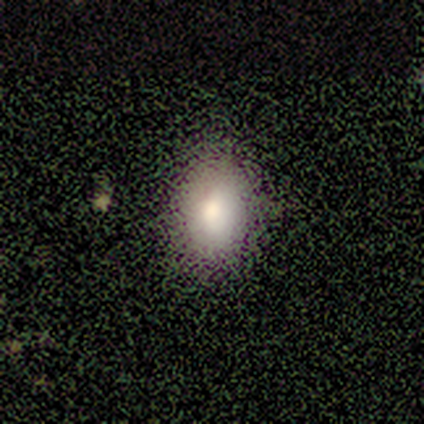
smooth_or_featured: smooth (p=0.83) [alt: star or artifact p=0.17]
how_rounded: in between (p=0.80) [alt: cigar-shaped p=0.20]
merging: none (p=0.60) [alt: minor disturbance p=0.20]